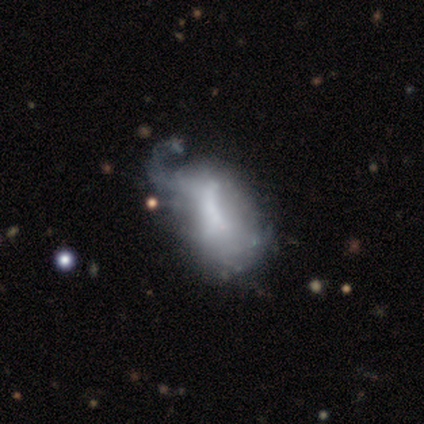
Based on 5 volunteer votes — Smooth or featured? smooth (60%)
How rounded? in between (100%)
Merging? minor disturbance (50%)